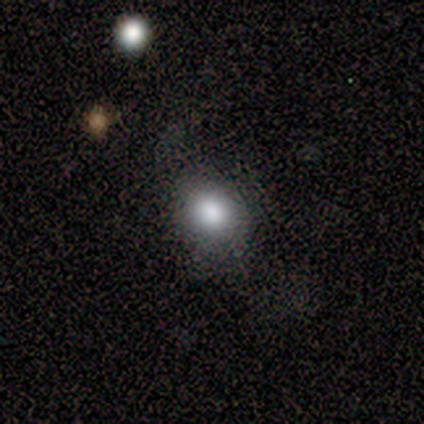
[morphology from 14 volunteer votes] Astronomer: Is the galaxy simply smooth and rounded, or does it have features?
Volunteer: smooth — 79%.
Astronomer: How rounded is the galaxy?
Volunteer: in between — 55% (runner-up: round, 45%).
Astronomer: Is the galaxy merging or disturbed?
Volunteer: none — 58% (runner-up: minor disturbance, 42%).